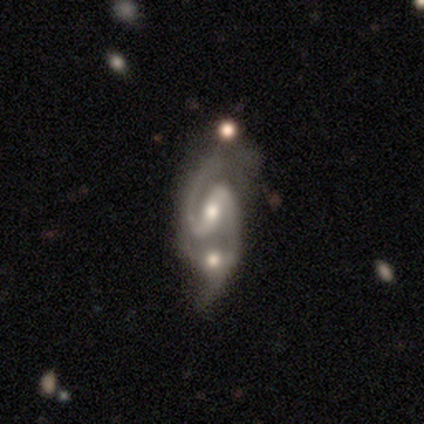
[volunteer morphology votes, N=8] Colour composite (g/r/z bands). It shows a featured or disk galaxy (100%) with a weak bar (75%), 2 (100%) medium (62%) spiral arms (100%) and a moderate central bulge (62%). Merging: none (62%).